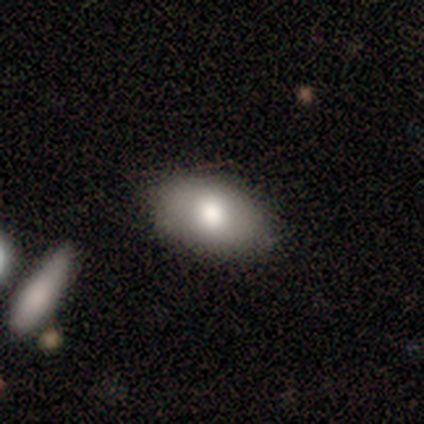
smooth_or_featured: smooth (p=0.80) [alt: featured or disk p=0.20]
how_rounded: in between (p=0.88) [alt: round p=0.12]
merging: none (p=0.90) [alt: minor disturbance p=0.10]